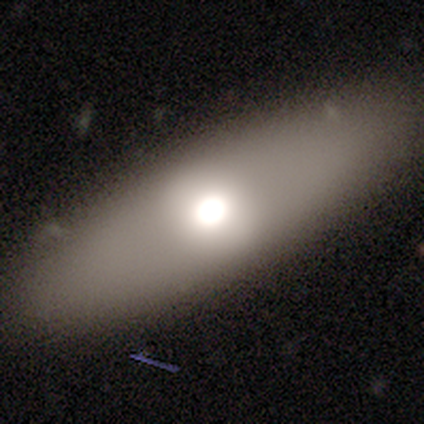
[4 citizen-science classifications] Q: Smooth or featured?
A: featured or disk (50%); runner-up: smooth (25%)
Q: Edge-on disk?
A: no (100%)
Q: Bar?
A: no (100%)
Q: Spiral arms?
A: no (100%)
Q: Bulge size?
A: large (50%); tied with: moderate (50%)
Q: Merging?
A: none (67%); runner-up: major disturbance (33%)